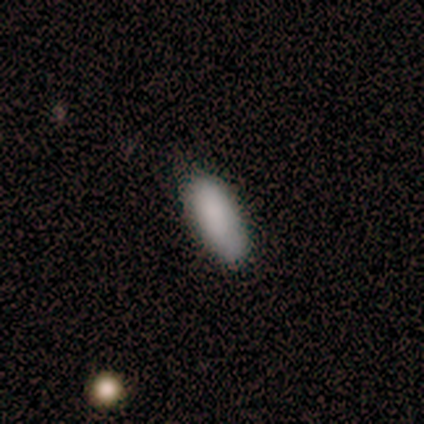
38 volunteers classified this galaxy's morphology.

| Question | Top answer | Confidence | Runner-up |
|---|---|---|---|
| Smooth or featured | smooth | 76% | featured or disk (18%) |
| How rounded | in between | 79% | cigar-shaped (21%) |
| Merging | none | 78% | minor disturbance (22%) |